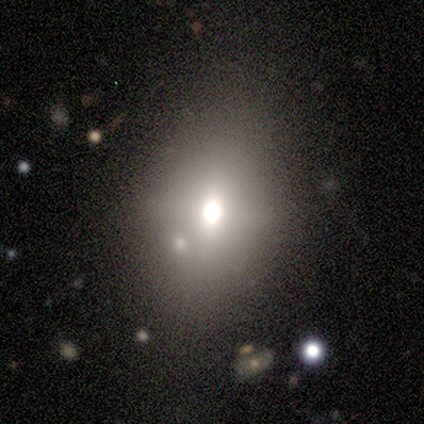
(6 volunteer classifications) Smooth or featured?
  - smooth: 50% *
  - star or artifact: 33%
  - featured or disk: 17%
How rounded?
  - in between: 100% *
  - round: 0%
  - cigar-shaped: 0%
Merging?
  - none: 50% * (tied)
  - minor disturbance: 50% * (tied)
  - major disturbance: 0%
  - merger: 0%